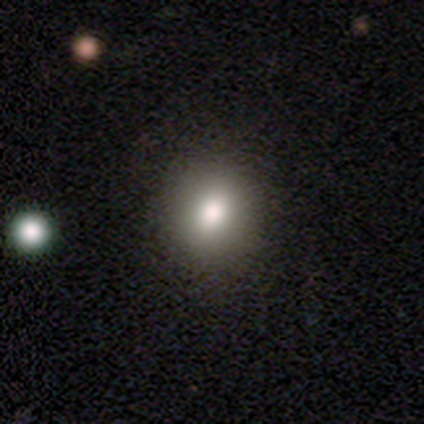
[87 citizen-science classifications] A smooth galaxy with no disk features (75%) that is round (83%). Merging: none (90%).